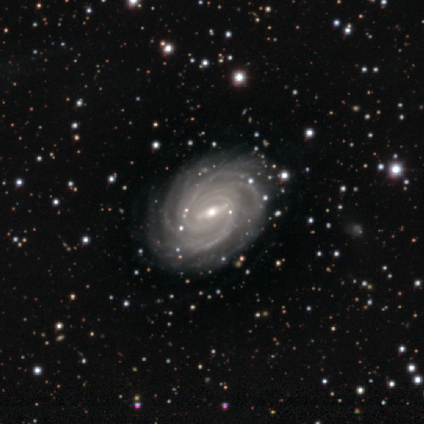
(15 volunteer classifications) featured or disk 93%, star or artifact 7%, smooth 0%. Down the decision tree: edge-on disk — no (100%); bar — strong (50%, tied with weak); spiral arms — yes (100%); spiral arm count — more than 4 (64%); spiral winding — tight (93%); bulge size — small (64%); merging — none (86%).